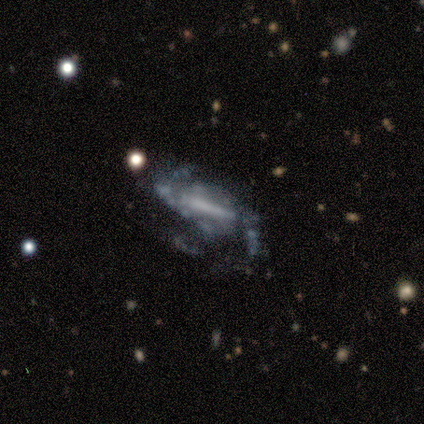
Smooth or featured: featured or disk — 100%
Edge-on disk: no — 100%
Bar: strong — 80% (weak — 10%)
Spiral arms: yes — 80% (no — 20%)
Spiral winding: medium — 50% (loose — 38%)
Spiral arm count: 2 — 50% (3 — 38%)
Bulge size: none — 50% (moderate — 30%)
Merging: none — 50% (minor disturbance — 40%)